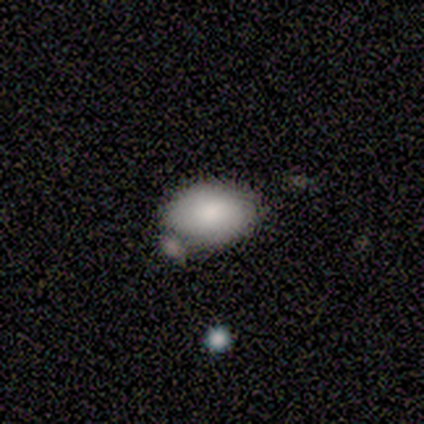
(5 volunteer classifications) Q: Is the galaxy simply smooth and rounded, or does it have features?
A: smooth — 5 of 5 (100%).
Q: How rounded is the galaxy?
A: in between — 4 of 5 (80%).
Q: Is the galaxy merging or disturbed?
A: none — 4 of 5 (80%).